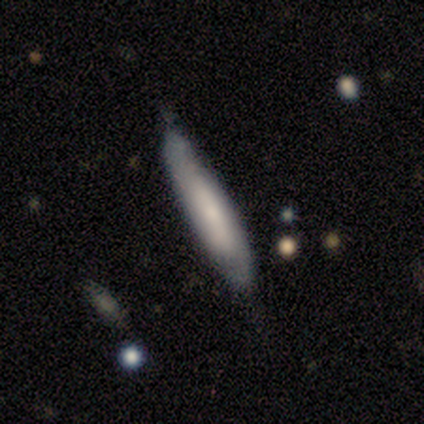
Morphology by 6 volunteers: smooth 50% (tied), featured or disk 50% (tied), star or artifact 0%. Down the decision tree: how rounded — cigar-shaped (100%); merging — none (50%, tied with minor disturbance).